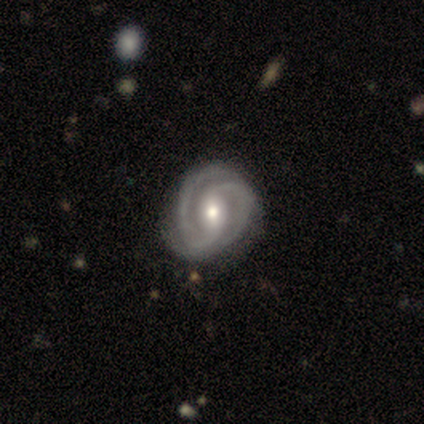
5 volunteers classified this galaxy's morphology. Volunteers were most divided on "merging": none: 60%, minor disturbance: 40%, major disturbance: 0%, merger: 0%. More confident: smooth or featured — featured or disk (100%); edge-on disk — no (100%); spiral arms — yes (100%); bar — weak (80%); spiral winding — tight (80%); spiral arm count — 2 (80%); bulge size — moderate (60%).